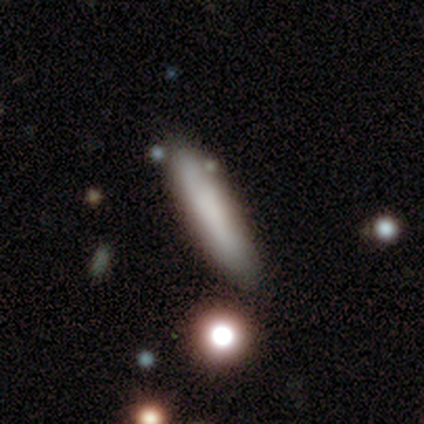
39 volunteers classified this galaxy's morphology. Overall: smooth (74%). How rounded: cigar-shaped (83%). Merging: none (66%).